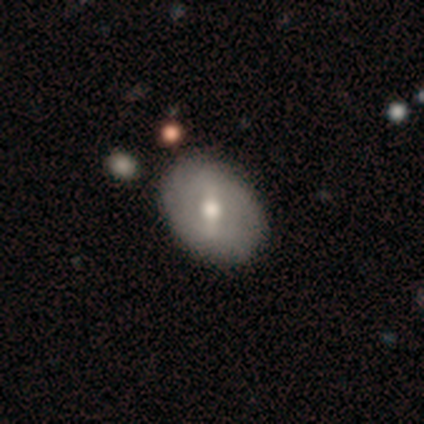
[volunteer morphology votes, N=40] Q: Smooth or featured?
A: smooth (52%); runner-up: featured or disk (42%)
Q: How rounded?
A: in between (71%); runner-up: round (29%)
Q: Merging?
A: none (66%); runner-up: minor disturbance (5%)